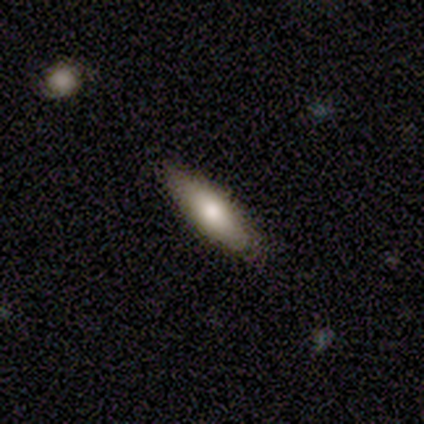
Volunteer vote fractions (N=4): This appears to be a smooth galaxy with no disk features (75%) that is in between round and cigar-shaped (67%). Merging: none (75%).